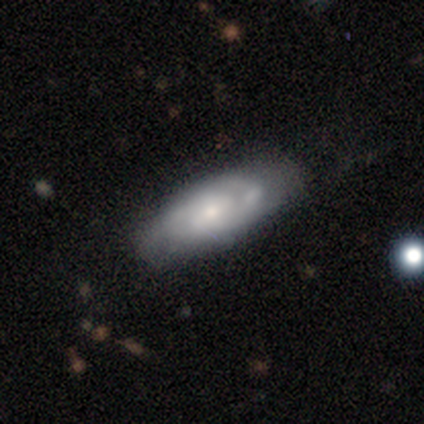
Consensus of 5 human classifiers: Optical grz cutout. It shows a featured or disk galaxy (60%) with no bar (67%), 2 (50%, tied with can't tell) tight (50%, tied with medium) spiral arms (67%) and a small central bulge (67%). Merging: minor disturbance (60%).